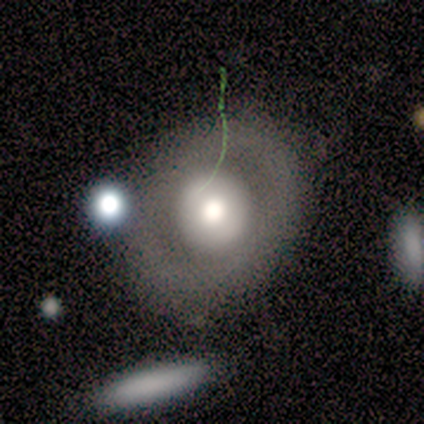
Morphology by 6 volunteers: Smooth or featured? featured or disk (67%)
Edge-on disk? no (100%)
Bar? no (100%)
Spiral arms? no (100%)
Bulge size? large (50%, tied with moderate)
Merging? none (83%)